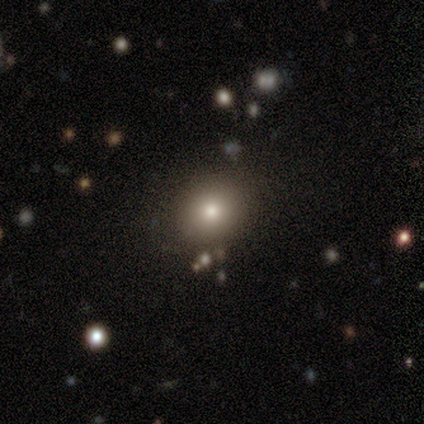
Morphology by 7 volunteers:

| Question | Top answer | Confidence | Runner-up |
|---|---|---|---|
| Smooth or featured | smooth | 86% | featured or disk (14%) |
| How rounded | round | 67% | in between (33%) |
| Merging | none | 86% | minor disturbance (14%) |